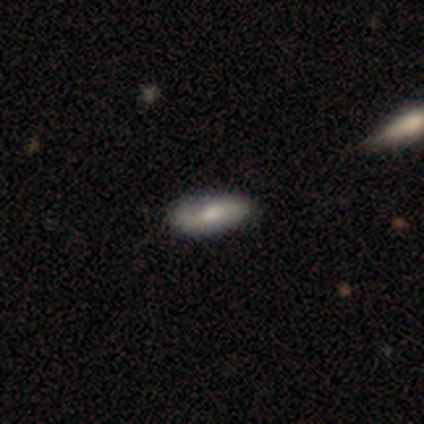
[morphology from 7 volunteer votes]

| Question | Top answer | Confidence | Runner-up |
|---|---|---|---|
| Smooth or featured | featured or disk | 57% | smooth (43%) |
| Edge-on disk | no | 100% | — |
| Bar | weak | 50% | strong (25%) |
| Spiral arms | yes | 50% | tied: no (50%) |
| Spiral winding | loose | 100% | — |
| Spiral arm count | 2 | 100% | — |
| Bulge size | moderate | 100% | — |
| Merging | none | 100% | — |